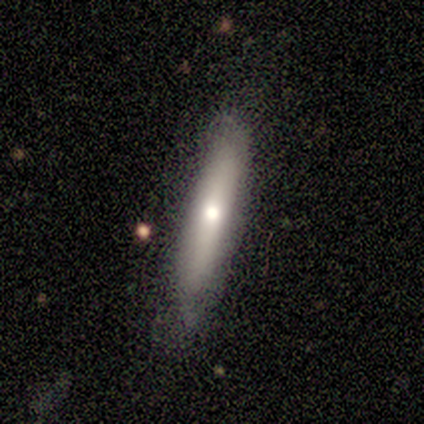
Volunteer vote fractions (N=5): smooth 80%, featured or disk 20%, star or artifact 0%. Down the decision tree: how rounded — cigar-shaped (100%); merging — none (100%).